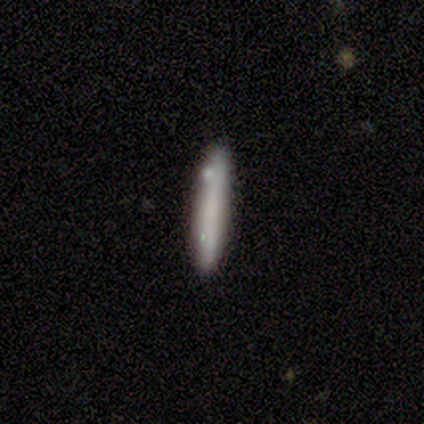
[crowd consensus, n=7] smooth_or_featured: smooth (p=0.86) [alt: star or artifact p=0.14]
how_rounded: cigar-shaped (p=1.00)
merging: none (p=1.00)